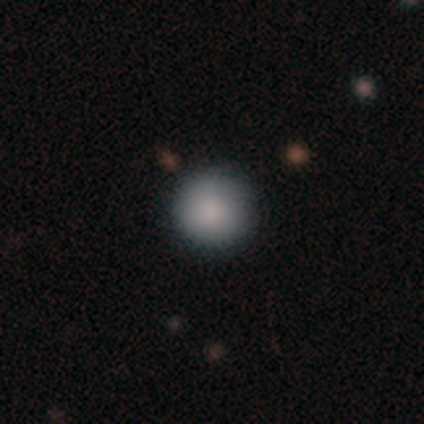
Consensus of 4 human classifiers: This appears to be a smooth galaxy with no disk features (100%) that is round (100%). Merging: none (100%).